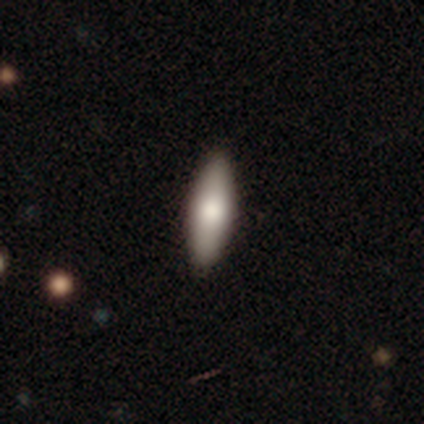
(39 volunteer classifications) smooth_or_featured: smooth (p=0.79) [alt: featured or disk p=0.18]
how_rounded: in between (p=0.55) [alt: cigar-shaped p=0.45]
merging: none (p=0.95) [alt: minor disturbance p=0.05]